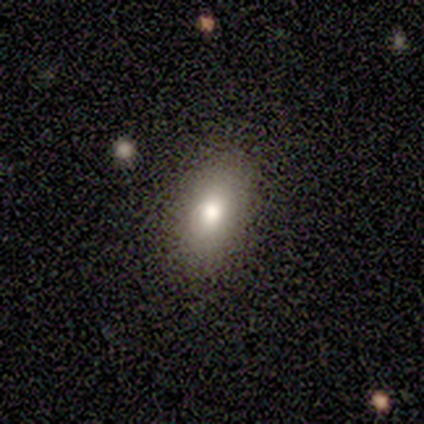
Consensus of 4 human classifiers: smooth-or-featured: smooth: 75% | star or artifact: 25% | featured or disk: 0%
  how-rounded: in between: 100% | round: 0% | cigar-shaped: 0%
  merging: none: 67% | minor disturbance: 33% | major disturbance: 0% | merger: 0%